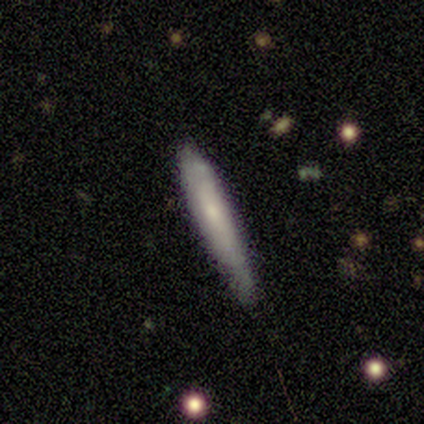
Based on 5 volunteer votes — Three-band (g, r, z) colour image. It shows a smooth galaxy with no disk features (40%, tied with featured or disk) that is cigar-shaped (100%). Merging: none (50%, tied with minor disturbance).